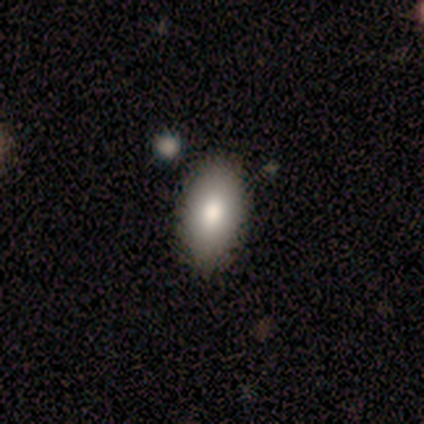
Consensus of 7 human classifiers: smooth 86%, featured or disk 14%, star or artifact 0%. Down the decision tree: how rounded — in between (67%); merging — none (57%).